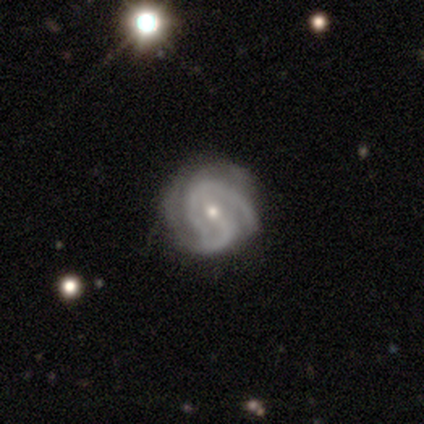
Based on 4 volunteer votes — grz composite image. It shows a featured or disk galaxy (100%) with a strong bar (50%, tied with no), 2 (100%) tight (100%) spiral arms (100%) and a moderate central bulge (50%, tied with small). Merging: none (75%).